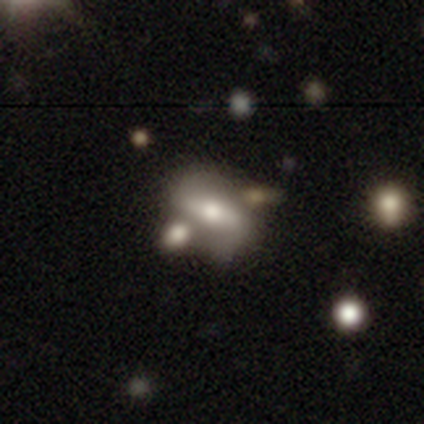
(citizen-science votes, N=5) A smooth galaxy with no disk features (40%, tied with featured or disk) that is round (50%, tied with in between).

Vote fractions:
- Smooth or featured? smooth: 40% (tied) / featured or disk: 40% (tied) / star or artifact: 20%
- How rounded? round: 50% (tied) / in between: 50% (tied) / cigar-shaped: 0%
- Merging? none: 50% (tied) / minor disturbance: 50% (tied) / major disturbance: 0% / merger: 0%